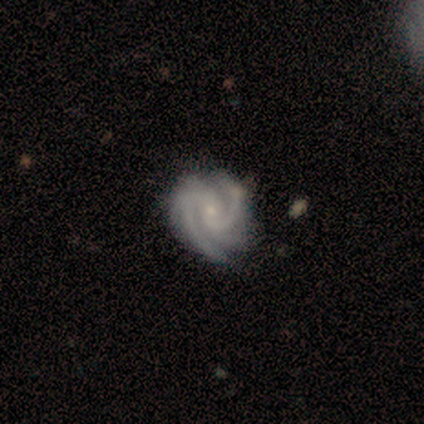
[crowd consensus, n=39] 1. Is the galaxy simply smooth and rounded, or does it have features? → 95% featured or disk, 5% star or artifact, 0% smooth.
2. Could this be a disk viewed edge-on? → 100% no, 0% yes.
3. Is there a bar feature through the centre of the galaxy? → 46% weak (tied), 46% no (tied), 8% strong.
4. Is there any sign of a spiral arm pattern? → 100% yes, 0% no.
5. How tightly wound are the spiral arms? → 54% tight, 41% medium, 5% loose.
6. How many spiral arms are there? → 57% 2, 27% 3, 8% 4, 8% can't tell, 0% 1, 0% more than 4.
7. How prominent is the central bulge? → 81% small, 16% moderate, 3% none, 0% dominant, 0% large.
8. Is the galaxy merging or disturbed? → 59% none, 35% minor disturbance, 5% major disturbance, 0% merger.